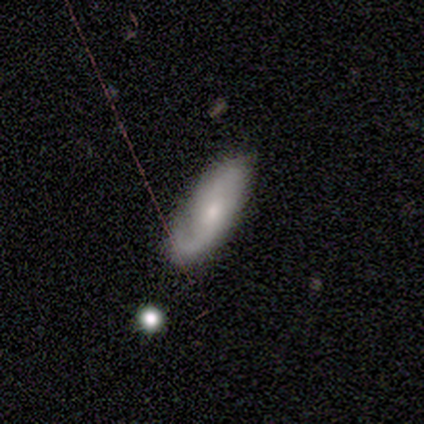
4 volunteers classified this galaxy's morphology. Smooth or featured?
  - featured or disk: 75% *
  - smooth: 25%
  - star or artifact: 0%
Edge-on disk?
  - no: 100% *
  - yes: 0%
Bar?
  - no: 67% *
  - weak: 33%
  - strong: 0%
Spiral arms?
  - yes: 100% *
  - no: 0%
Spiral winding?
  - loose: 100% *
  - tight: 0%
  - medium: 0%
Spiral arm count?
  - 1: 100% *
  - 2: 0%
  - 3: 0%
  - 4: 0%
  - more than 4: 0%
  - can't tell: 0%
Bulge size?
  - moderate: 67% *
  - small: 33%
  - dominant: 0%
  - large: 0%
  - none: 0%
Merging?
  - none: 75% *
  - minor disturbance: 25%
  - major disturbance: 0%
  - merger: 0%